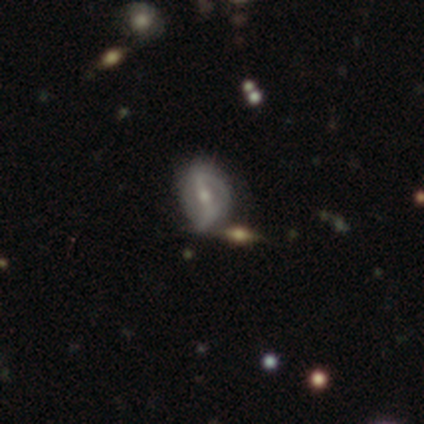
featured or disk 100%, smooth 0%, star or artifact 0%. Down the decision tree: edge-on disk — no (67%); bar — strong (50%, tied with weak); spiral arms — yes (100%); spiral arm count — 2 (100%); spiral winding — tight (50%, tied with medium); bulge size — moderate (100%); merging — minor disturbance (67%).